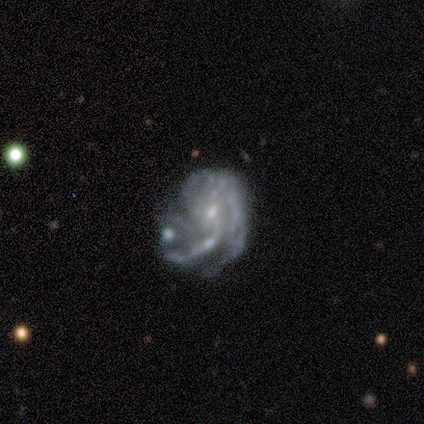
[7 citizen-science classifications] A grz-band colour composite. It shows a featured or disk galaxy (86%) with no bar (67%), tight (33%, tied with medium and loose) spiral arms (100%) and a small central bulge (100%). Merging: none (43%, tied with minor disturbance).